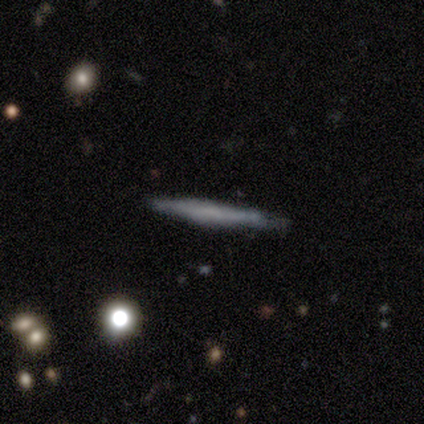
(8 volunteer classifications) This appears to be a featured or disk galaxy (62%) viewed edge-on (100%) with no central bulge (100%). Merging: none (88%).